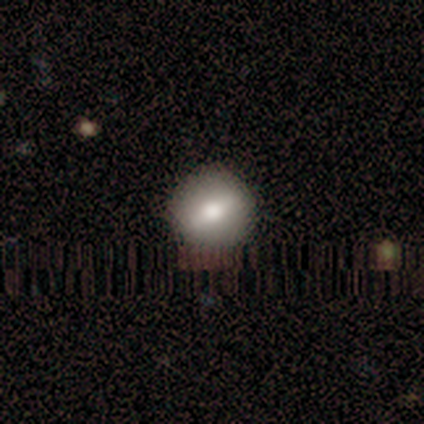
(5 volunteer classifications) Smooth or featured? 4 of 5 (80%) said smooth. How rounded? 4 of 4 (100%) said round. Merging? 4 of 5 (80%) said none.